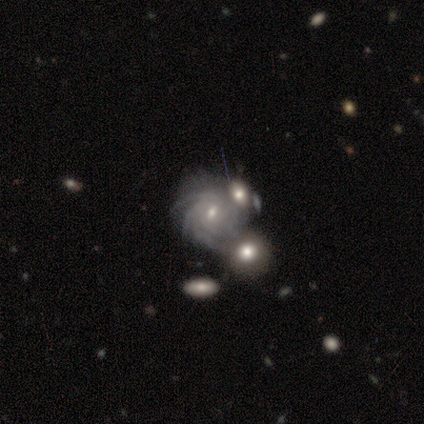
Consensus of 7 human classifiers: Q: Smooth or featured?
A: featured or disk (100%)
Q: Edge-on disk?
A: no (100%)
Q: Bar?
A: weak (71%); runner-up: no (29%)
Q: Spiral arms?
A: yes (100%)
Q: Spiral winding?
A: tight (71%); runner-up: medium (29%)
Q: Spiral arm count?
A: more than 4 (57%); runner-up: 4 (29%)
Q: Bulge size?
A: small (71%); runner-up: moderate (29%)
Q: Merging?
A: merger (57%); runner-up: none (43%)